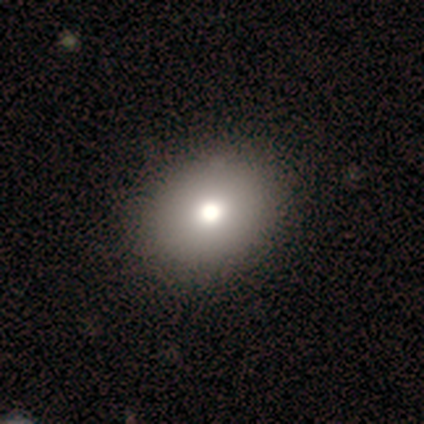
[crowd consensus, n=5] smooth_or_featured: smooth (p=0.80) [alt: featured or disk p=0.20]
how_rounded: in between (p=0.75) [alt: round p=0.25]
merging: none (p=1.00)